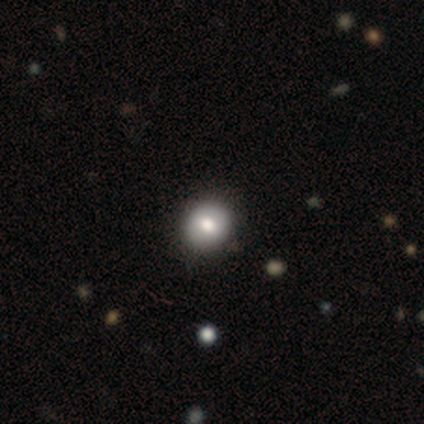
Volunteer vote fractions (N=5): smooth 80%, star or artifact 20%, featured or disk 0%. Down the decision tree: how rounded — round (75%); merging — none (100%).